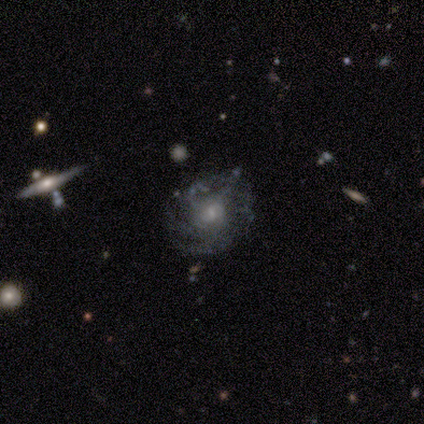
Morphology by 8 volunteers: Smooth or featured?
  - featured or disk: 88% *
  - star or artifact: 12%
  - smooth: 0%
Edge-on disk?
  - no: 100% *
  - yes: 0%
Bar?
  - no: 57% *
  - weak: 43%
  - strong: 0%
Spiral arms?
  - yes: 86% *
  - no: 14%
Spiral winding?
  - medium: 83% *
  - tight: 17%
  - loose: 0%
Spiral arm count?
  - 3: 33% *
  - 2: 17%
  - 4: 17%
  - more than 4: 17%
  - can't tell: 17%
  - 1: 0%
Bulge size?
  - small: 57% *
  - moderate: 43%
  - dominant: 0%
  - large: 0%
  - none: 0%
Merging?
  - none: 57% *
  - minor disturbance: 29%
  - major disturbance: 14%
  - merger: 0%